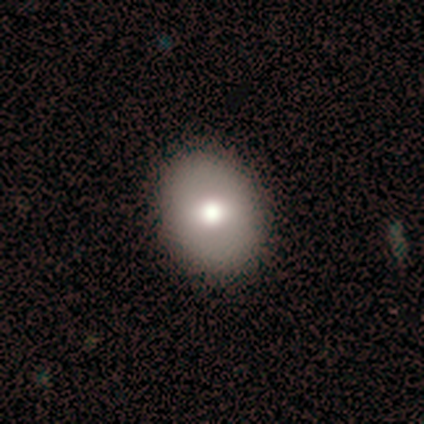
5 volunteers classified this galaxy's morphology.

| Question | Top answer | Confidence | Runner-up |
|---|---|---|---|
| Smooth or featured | smooth | 60% | featured or disk (40%) |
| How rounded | in between | 67% | round (33%) |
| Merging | none | 100% | — |